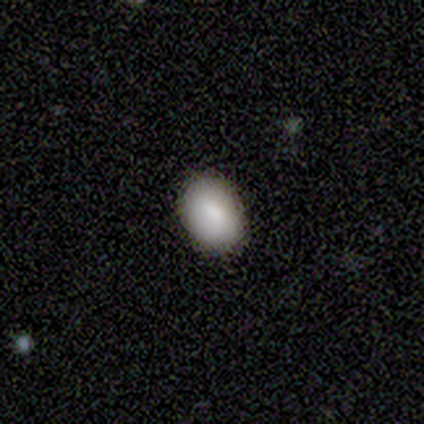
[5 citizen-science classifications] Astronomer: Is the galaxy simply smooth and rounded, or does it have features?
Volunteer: smooth — 80%.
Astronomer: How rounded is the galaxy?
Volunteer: in between — 100%.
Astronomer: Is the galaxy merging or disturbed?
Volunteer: none — 100%.